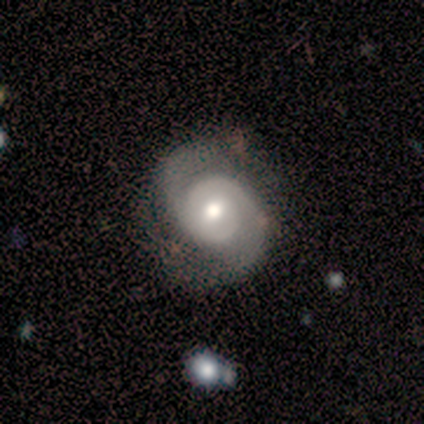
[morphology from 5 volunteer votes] Smooth or featured: featured or disk — 100%
Edge-on disk: no — 100%
Bar: no — 80% (strong — 20%)
Spiral arms: yes — 100%
Spiral winding: medium — 60% (loose — 40%)
Spiral arm count: 2 — 100%
Bulge size: moderate — 40% (tied with small — 40%)
Merging: none — 80% (minor disturbance — 20%)